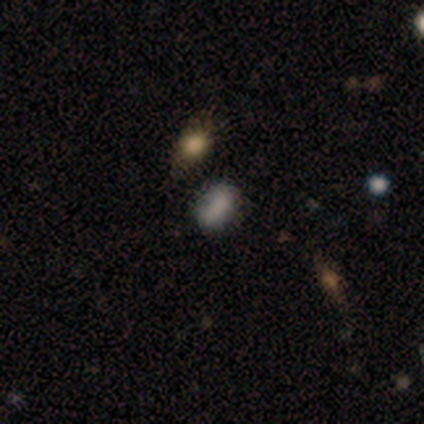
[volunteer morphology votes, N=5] Smooth or featured? 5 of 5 (100%) said smooth. How rounded? 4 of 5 (80%) said in between. Merging? 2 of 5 (40%) said major disturbance.